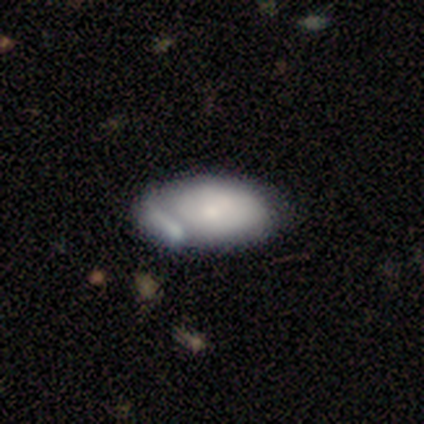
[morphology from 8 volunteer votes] Q: Smooth or featured?
A: smooth (62%); runner-up: featured or disk (38%)
Q: How rounded?
A: in between (100%)
Q: Merging?
A: minor disturbance (50%); runner-up: none (38%)